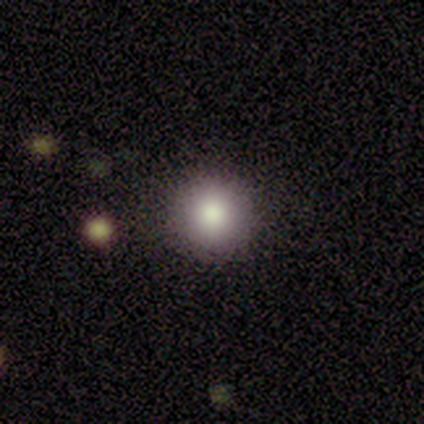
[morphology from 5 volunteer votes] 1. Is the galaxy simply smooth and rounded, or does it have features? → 100% smooth, 0% featured or disk, 0% star or artifact.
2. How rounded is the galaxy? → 100% round, 0% in between, 0% cigar-shaped.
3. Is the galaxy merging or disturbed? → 100% none, 0% minor disturbance, 0% major disturbance, 0% merger.